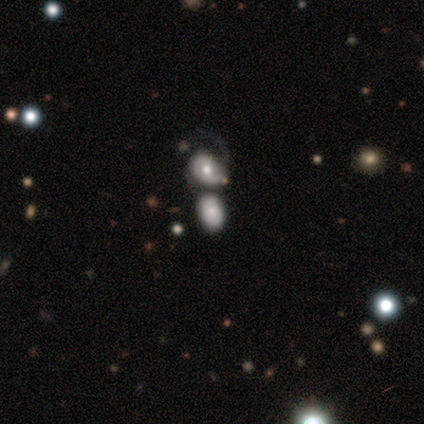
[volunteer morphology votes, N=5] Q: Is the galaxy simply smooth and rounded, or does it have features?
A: smooth — 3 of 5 (60%).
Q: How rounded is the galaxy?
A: in between — 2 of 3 (67%).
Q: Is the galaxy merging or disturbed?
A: merger — 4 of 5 (80%).